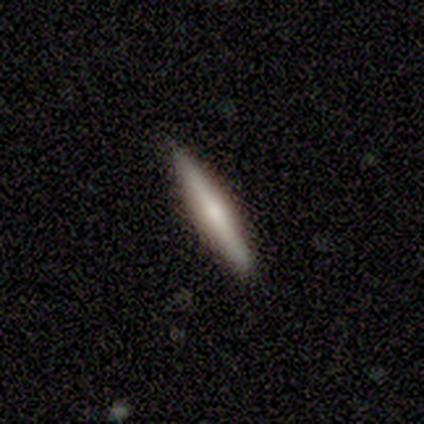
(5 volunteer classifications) Morphology: type=smooth (80%); roundness=cigar-shaped (100%); merging=none (100%).